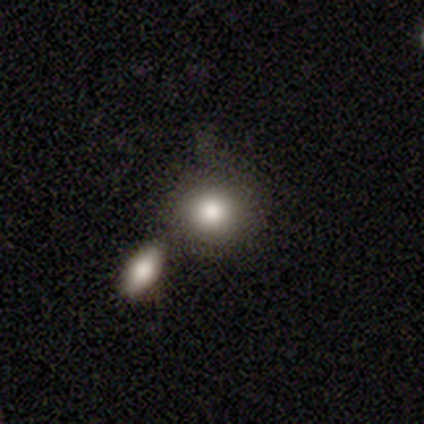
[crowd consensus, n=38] This is likely a smooth galaxy (74%). How rounded: clearly round (82%). Merging: likely none (69%).